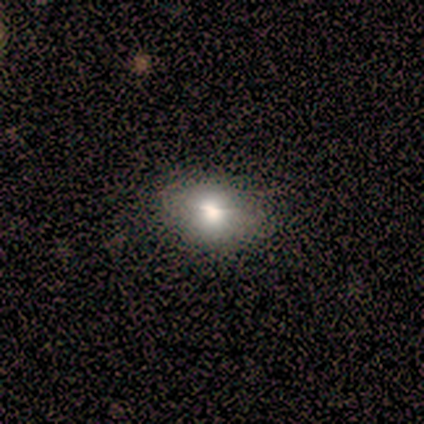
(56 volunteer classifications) Q: Smooth or featured?
A: smooth (73%); runner-up: featured or disk (18%)
Q: How rounded?
A: in between (71%); runner-up: round (29%)
Q: Merging?
A: none (76%); runner-up: minor disturbance (20%)